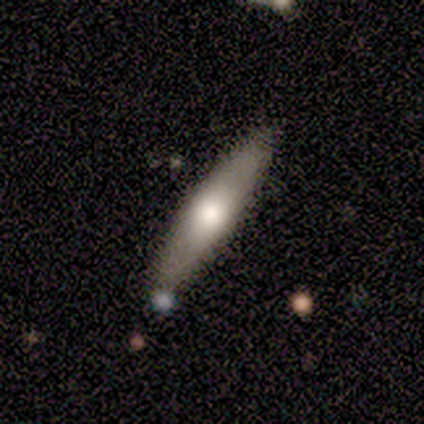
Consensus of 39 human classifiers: A smooth galaxy with no disk features (64%) that is cigar-shaped (96%).

Vote fractions:
- Smooth or featured? smooth: 64% / featured or disk: 31% / star or artifact: 5%
- How rounded? cigar-shaped: 96% / in between: 4% / round: 0%
- Merging? none: 86% / minor disturbance: 8% / major disturbance: 3% / merger: 3%